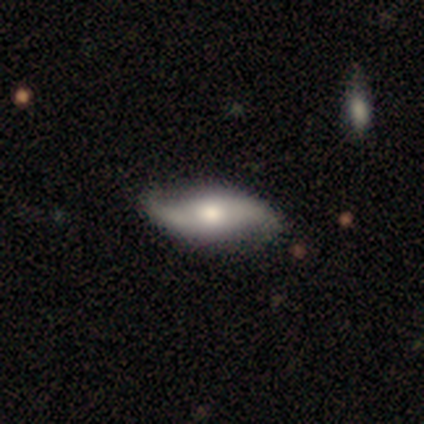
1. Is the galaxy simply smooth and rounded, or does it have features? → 80% featured or disk, 18% smooth, 2% star or artifact.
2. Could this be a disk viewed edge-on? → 84% no, 16% yes.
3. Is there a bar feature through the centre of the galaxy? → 74% no, 19% weak, 7% strong.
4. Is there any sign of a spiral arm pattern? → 100% yes, 0% no.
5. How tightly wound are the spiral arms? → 96% loose, 4% medium, 0% tight.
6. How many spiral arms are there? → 93% 2, 4% 1, 4% can't tell, 0% 3, 0% 4, 0% more than 4.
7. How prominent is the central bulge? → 70% moderate, 19% large, 11% small, 0% dominant, 0% none.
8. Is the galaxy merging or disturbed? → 69% none, 8% minor disturbance, 5% major disturbance, 3% merger.